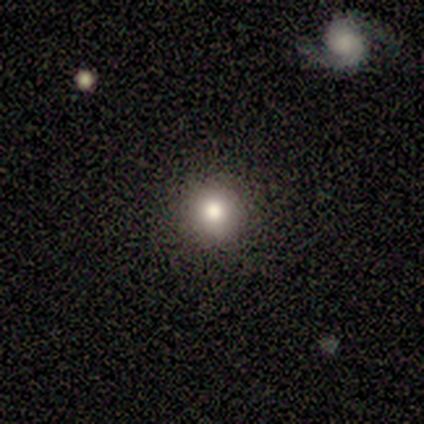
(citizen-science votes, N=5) Overall: smooth (80%). How rounded: round (75%). Merging: none (100%).